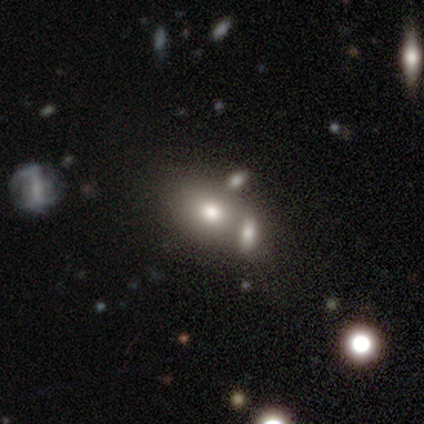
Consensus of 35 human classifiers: Smooth or featured? 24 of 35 (69%) said smooth. How rounded? 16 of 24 (67%) said in between. Merging? 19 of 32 (59%) said merger.